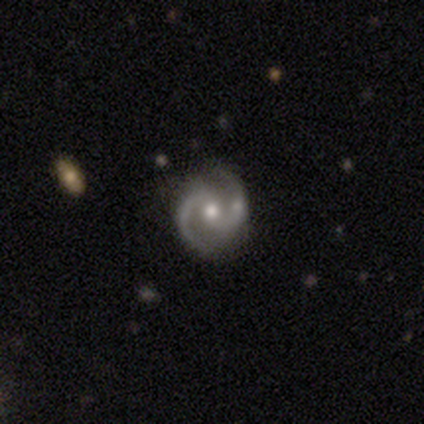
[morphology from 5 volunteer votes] Smooth or featured? 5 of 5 (100%) said featured or disk. Edge-on disk? 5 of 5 (100%) said no. Bar? 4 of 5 (80%) said no. Spiral arms? 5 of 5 (100%) said yes. Spiral winding? 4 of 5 (80%) said medium. Spiral arm count? 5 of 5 (100%) said 2. Bulge size? 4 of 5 (80%) said moderate. Merging? 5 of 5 (100%) said none.